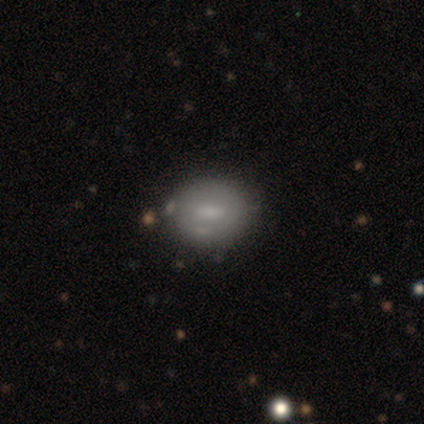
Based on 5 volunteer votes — Volunteers were most divided on "smooth or featured": smooth: 60%, featured or disk: 40%, star or artifact: 0%. More confident: how rounded — in between (67%); merging — minor disturbance (60%).